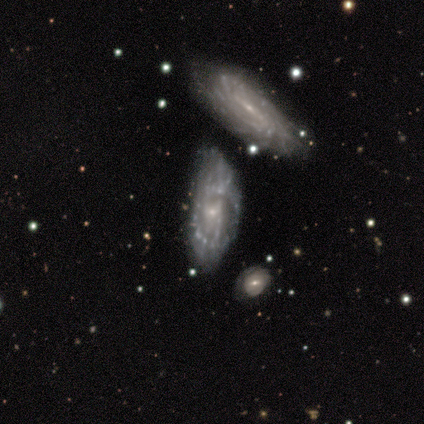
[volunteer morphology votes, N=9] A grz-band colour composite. It shows a featured or disk galaxy (89%) with no bar (57%), 2 (50%, tied with can't tell) medium (50%) spiral arms (57%) and a small central bulge (71%). Merging: minor disturbance (56%).